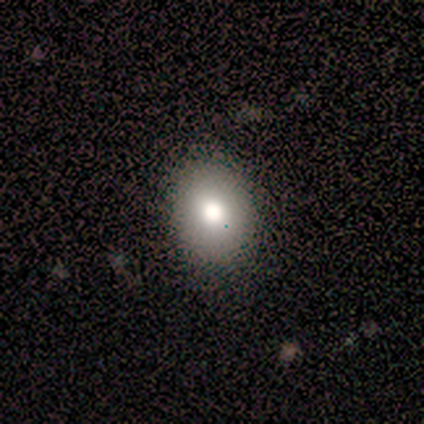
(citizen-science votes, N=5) This appears to be a smooth galaxy with no disk features (100%) that is in between round and cigar-shaped (100%). Merging: none (100%).